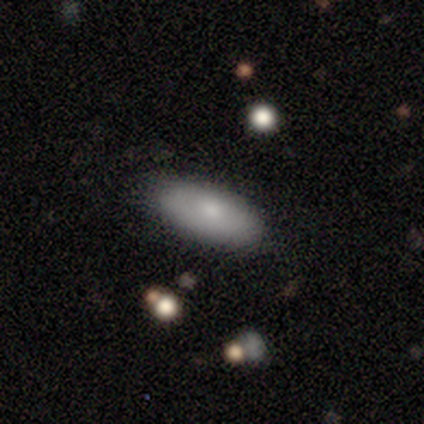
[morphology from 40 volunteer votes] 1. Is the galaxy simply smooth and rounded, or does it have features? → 85% smooth, 10% featured or disk, 5% star or artifact.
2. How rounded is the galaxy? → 71% in between, 24% cigar-shaped, 6% round.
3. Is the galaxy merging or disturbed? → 82% none, 18% minor disturbance, 0% major disturbance, 0% merger.